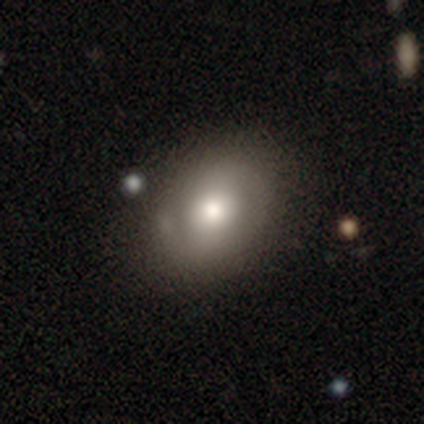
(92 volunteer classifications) Smooth or featured?
  - smooth: 54% *
  - featured or disk: 36%
  - star or artifact: 10%
How rounded?
  - in between: 68% *
  - round: 32%
  - cigar-shaped: 0%
Merging?
  - none: 66% *
  - minor disturbance: 23%
  - major disturbance: 6%
  - merger: 5%